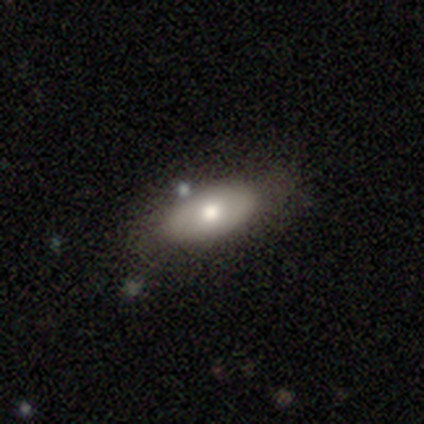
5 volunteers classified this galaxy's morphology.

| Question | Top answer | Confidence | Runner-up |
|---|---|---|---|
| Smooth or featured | featured or disk | 60% | smooth (40%) |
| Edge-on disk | yes | 67% | no (33%) |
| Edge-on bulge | none | 50% | tied: rounded (50%) |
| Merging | none | 80% | minor disturbance (20%) |